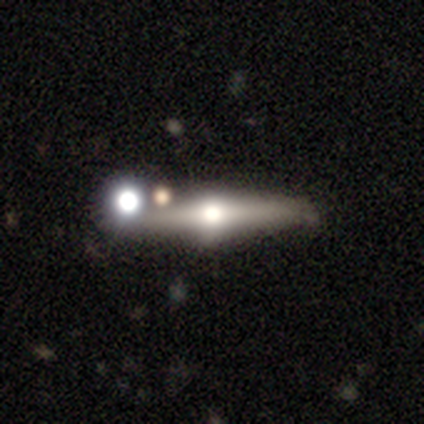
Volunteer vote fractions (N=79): Smooth or featured? 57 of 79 (72%) said featured or disk. Edge-on disk? 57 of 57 (100%) said yes. Edge-on bulge? 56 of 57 (98%) said rounded. Merging? 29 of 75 (39%) said none.